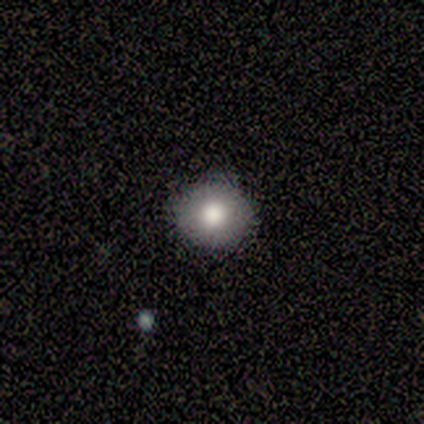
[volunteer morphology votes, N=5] A smooth galaxy with no disk features (80%) that is round (100%). Merging: none (100%).